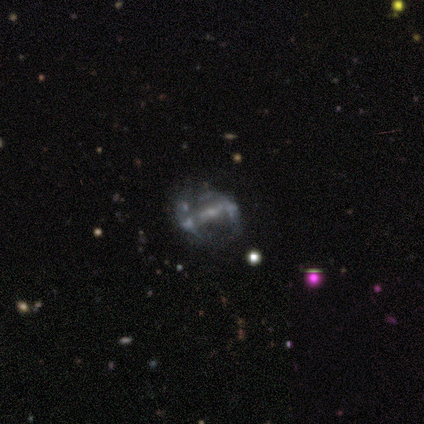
Smooth or featured?
  - featured or disk: 100% *
  - smooth: 0%
  - star or artifact: 0%
Edge-on disk?
  - no: 100% *
  - yes: 0%
Bar?
  - weak: 60% *
  - strong: 20%
  - no: 20%
Spiral arms?
  - no: 100% *
  - yes: 0%
Bulge size?
  - moderate: 40% * (tied)
  - small: 40% * (tied)
  - none: 20%
  - dominant: 0%
  - large: 0%
Merging?
  - none: 40% * (tied)
  - major disturbance: 40% * (tied)
  - minor disturbance: 20%
  - merger: 0%